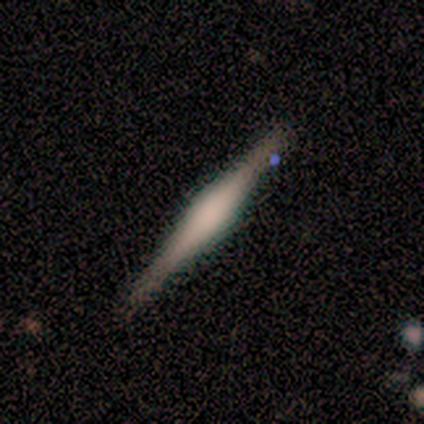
A featured or disk galaxy (83%) viewed edge-on (100%) with a rounded central bulge (60%).

Vote fractions:
- Smooth or featured? featured or disk: 83% / smooth: 17% / star or artifact: 0%
- Edge-on disk? yes: 100% / no: 0%
- Edge-on bulge? rounded: 60% / boxy: 40% / none: 0%
- Merging? none: 67% / minor disturbance: 33% / major disturbance: 0% / merger: 0%